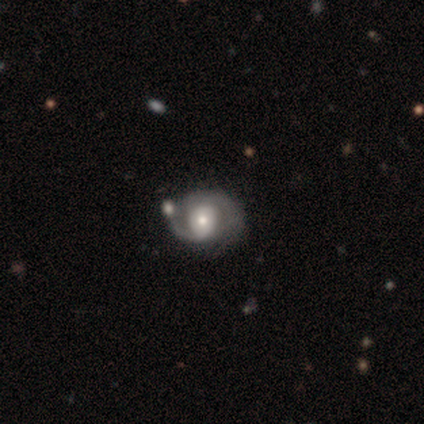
smooth-or-featured: smooth: 50% (tied) | featured or disk: 50% (tied) | star or artifact: 0%
  how-rounded: round: 100% | in between: 0% | cigar-shaped: 0%
  merging: none: 75% | major disturbance: 25% | minor disturbance: 0% | merger: 0%